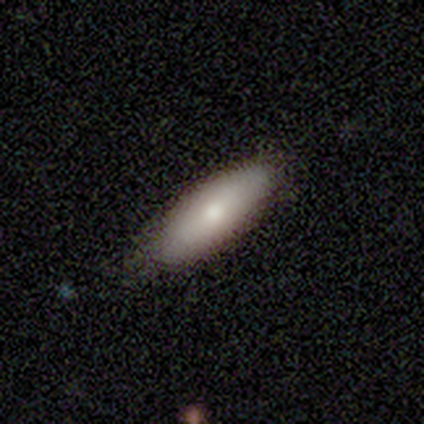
Overall: smooth (100%). How rounded: in between (75%). Merging: none (75%).